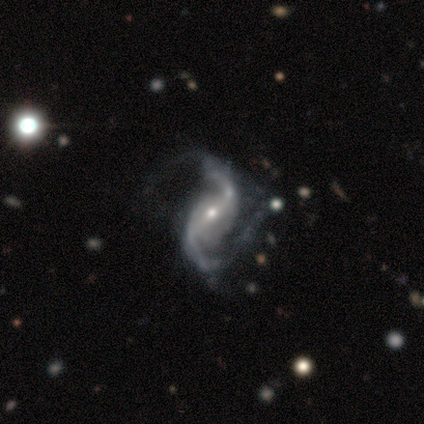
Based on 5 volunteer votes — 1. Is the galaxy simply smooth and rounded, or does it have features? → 100% featured or disk, 0% smooth, 0% star or artifact.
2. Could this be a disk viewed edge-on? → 100% no, 0% yes.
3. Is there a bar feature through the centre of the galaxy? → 60% strong, 40% weak, 0% no.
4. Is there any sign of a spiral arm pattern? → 100% yes, 0% no.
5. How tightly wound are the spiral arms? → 80% loose, 20% medium, 0% tight.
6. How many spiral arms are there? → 100% 2, 0% 1, 0% 3, 0% 4, 0% more than 4, 0% can't tell.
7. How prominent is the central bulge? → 60% small, 40% moderate, 0% dominant, 0% large, 0% none.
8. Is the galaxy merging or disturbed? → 60% major disturbance, 40% none, 0% minor disturbance, 0% merger.